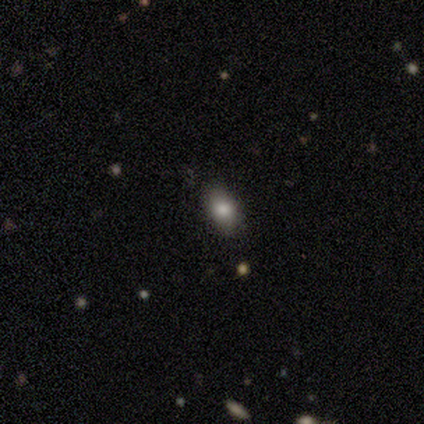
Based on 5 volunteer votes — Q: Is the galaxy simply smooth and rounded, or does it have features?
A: smooth — 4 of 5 (80%).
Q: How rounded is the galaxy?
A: round — 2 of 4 (50%, tied with in between).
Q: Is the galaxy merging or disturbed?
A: none — 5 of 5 (100%).